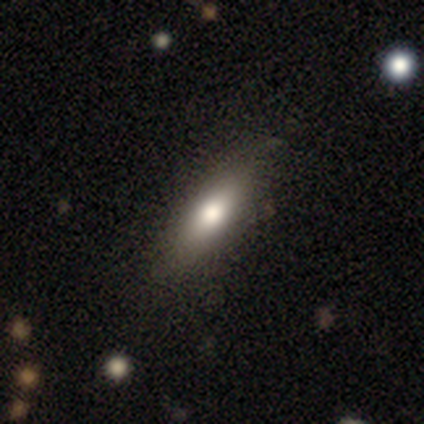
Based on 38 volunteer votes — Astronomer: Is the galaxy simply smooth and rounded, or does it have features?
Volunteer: smooth — 66%.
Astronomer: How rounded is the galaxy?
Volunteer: in between — 56% (runner-up: cigar-shaped, 44%).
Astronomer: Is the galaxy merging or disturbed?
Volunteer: none — 75%.